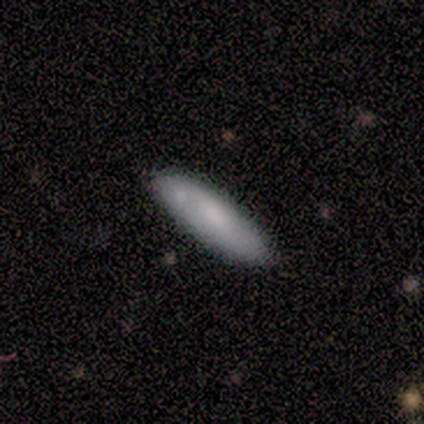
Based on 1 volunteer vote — smooth-or-featured: featured or disk: 100% | smooth: 0% | star or artifact: 0%
  disk-edge-on: yes: 100% | no: 0%
    edge-on-bulge: rounded: 100% | boxy: 0% | none: 0%
  merging: none: 100% | minor disturbance: 0% | major disturbance: 0% | merger: 0%